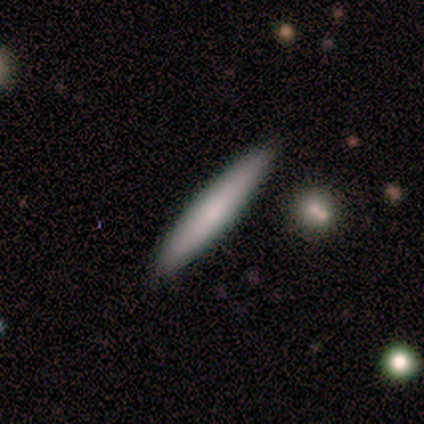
A smooth galaxy with no disk features (100%) that is cigar-shaped (80%).

Vote fractions:
- Smooth or featured? smooth: 100% / featured or disk: 0% / star or artifact: 0%
- How rounded? cigar-shaped: 80% / in between: 20% / round: 0%
- Merging? none: 100% / minor disturbance: 0% / major disturbance: 0% / merger: 0%